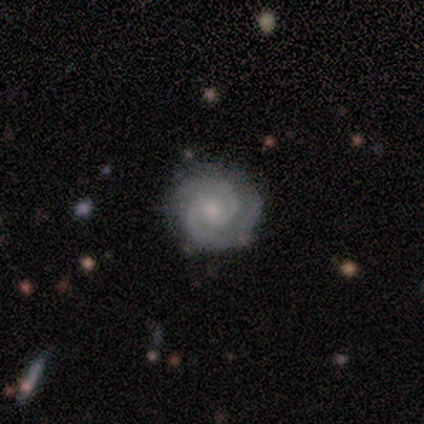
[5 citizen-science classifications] Volunteers were most divided on "bulge size" (2-way tie): moderate: 50%, small: 50%, dominant: 0%, large: 0%, none: 0%. More confident: edge-on disk — no (100%); bar — no (100%); spiral arms — yes (100%); spiral winding — tight (100%); spiral arm count — 2 (100%); merging — none (100%); smooth or featured — featured or disk (80%).